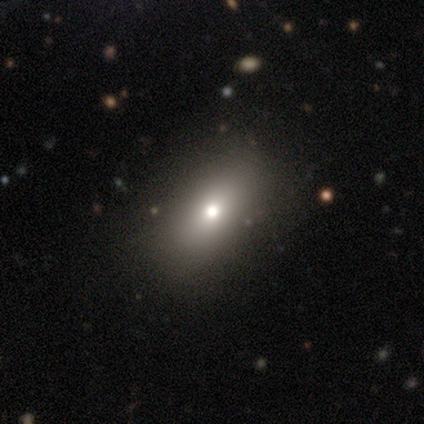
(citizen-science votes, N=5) A smooth galaxy with no disk features (60%) that is in between round and cigar-shaped (100%).

Vote fractions:
- Smooth or featured? smooth: 60% / featured or disk: 40% / star or artifact: 0%
- How rounded? in between: 100% / round: 0% / cigar-shaped: 0%
- Merging? none: 80% / minor disturbance: 20% / major disturbance: 0% / merger: 0%